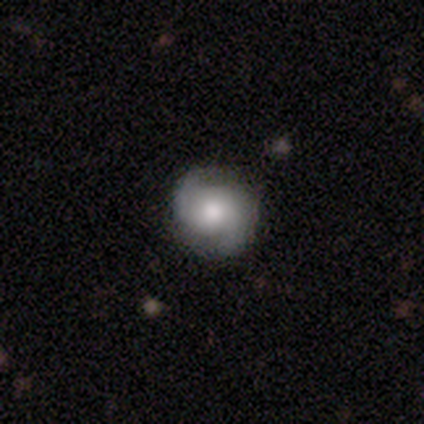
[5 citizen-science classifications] smooth-or-featured: featured or disk: 60% | smooth: 40% | star or artifact: 0%
  disk-edge-on: no: 100% | yes: 0%
    bar: no: 100% | strong: 0% | weak: 0%
    has-spiral-arms: yes: 100% | no: 0%
      spiral-winding: tight: 67% | loose: 33% | medium: 0%
      spiral-arm-count: 2: 67% | can't tell: 33% | 1: 0% | 3: 0% | 4: 0% | more than 4: 0%
    bulge-size: moderate: 67% | dominant: 33% | large: 0% | small: 0% | none: 0%
  merging: none: 80% | minor disturbance: 20% | major disturbance: 0% | merger: 0%